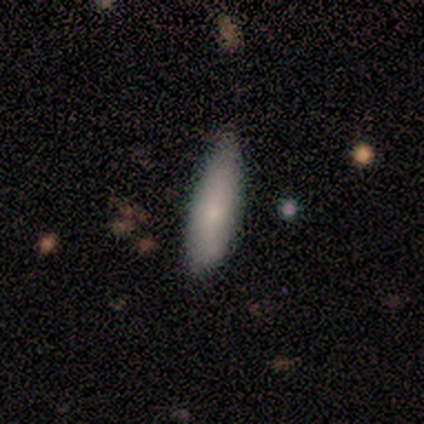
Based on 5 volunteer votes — Q: Smooth or featured?
A: smooth (80%); runner-up: featured or disk (20%)
Q: How rounded?
A: in between (75%); runner-up: cigar-shaped (25%)
Q: Merging?
A: minor disturbance (60%); runner-up: none (40%)